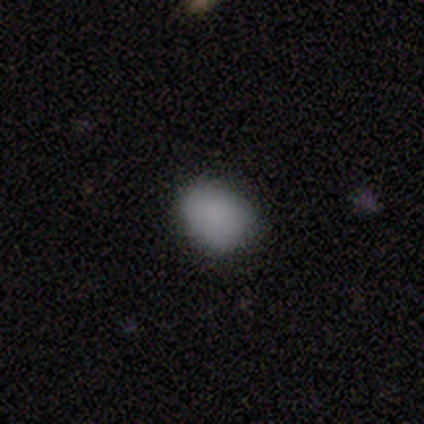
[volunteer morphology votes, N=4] Overall: smooth (100%). How rounded: in between (100%). Merging: none (50%, tied with minor disturbance).